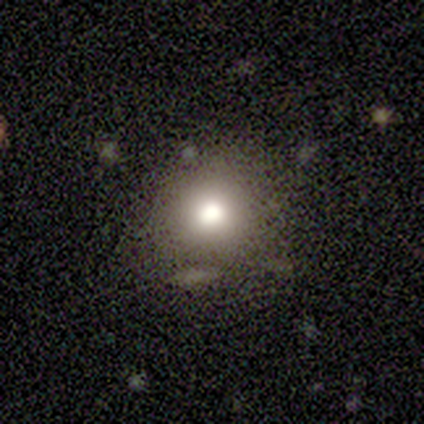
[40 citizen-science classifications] Morphology: type=smooth (88%); roundness=round (89%); merging=none (76%).